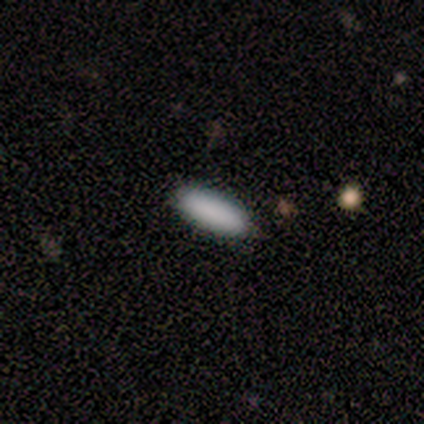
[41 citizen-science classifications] Morphology: type=smooth (88%); roundness=in between (61%); merging=none (92%).